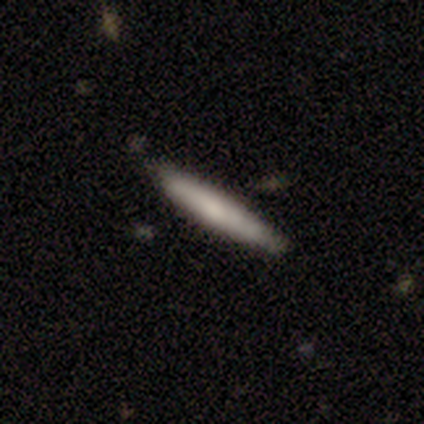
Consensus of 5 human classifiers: A smooth galaxy with no disk features (100%) that is cigar-shaped (100%). Merging: none (80%).